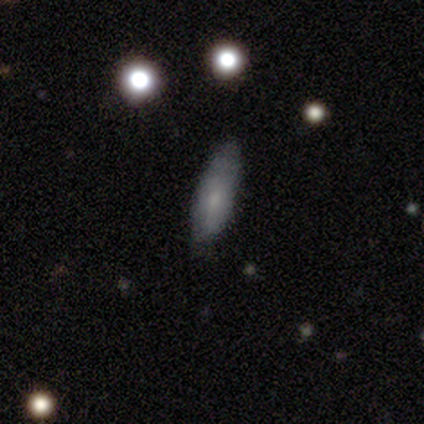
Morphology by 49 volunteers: Volunteers were most divided on "smooth or featured": smooth: 63%, featured or disk: 37%, star or artifact: 0%. More confident: how rounded — in between (68%); merging — none (61%).